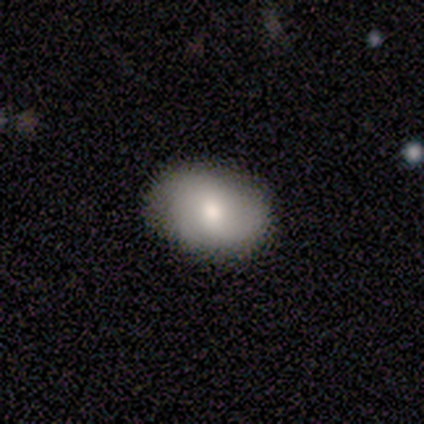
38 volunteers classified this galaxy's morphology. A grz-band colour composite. It shows a smooth galaxy with no disk features (79%) that is in between round and cigar-shaped (73%). Merging: none (94%).